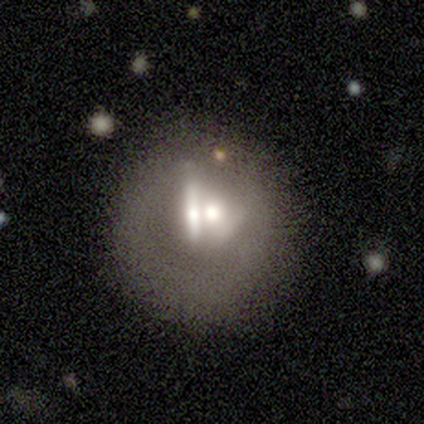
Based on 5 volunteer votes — Smooth or featured: featured or disk — 100%
Edge-on disk: no — 100%
Bar: no — 100%
Spiral arms: no — 100%
Bulge size: large — 40% (tied with small — 40%)
Merging: merger — 60% (none — 40%)